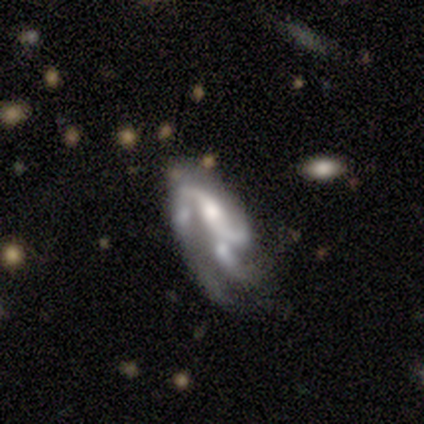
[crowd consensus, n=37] Overall: featured or disk (89%). Edge-on disk: no (100%). Bar: no (48%; weak 33%). Spiral arms: yes (76%). Spiral arm count: 2 (44%; 3 40%). Spiral winding: medium (56%; loose 32%). Bulge size: moderate (33%; none 27%). Merging: major disturbance (31%; merger 28%).